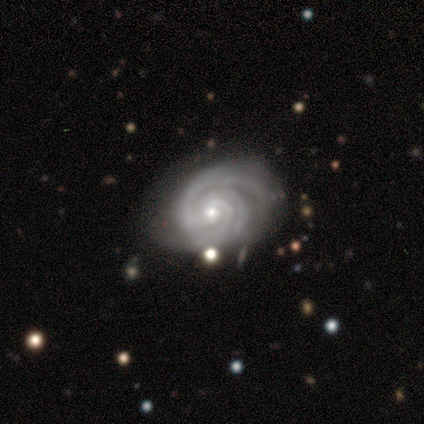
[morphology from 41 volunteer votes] smooth-or-featured: featured or disk: 98% | star or artifact: 2% | smooth: 0%
  disk-edge-on: no: 100% | yes: 0%
    bar: no: 75% | weak: 15% | strong: 10%
    has-spiral-arms: yes: 100% | no: 0%
      spiral-winding: tight: 75% | medium: 18% | loose: 8%
      spiral-arm-count: 3: 42% | 2: 28% | can't tell: 22% | 4: 5% | 1: 2% | more than 4: 0%
    bulge-size: small: 57% | moderate: 42% | dominant: 0% | large: 0% | none: 0%
  merging: none: 60% | minor disturbance: 22% | major disturbance: 18% | merger: 0%